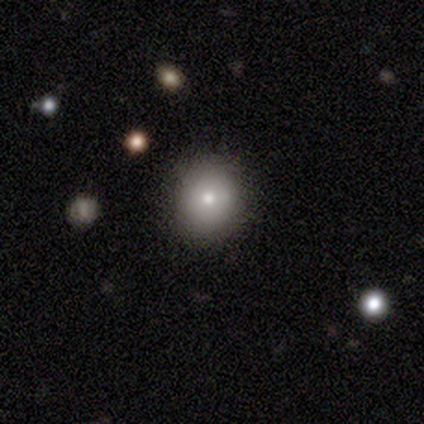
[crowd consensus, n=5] This is clearly a smooth galaxy (100%). How rounded: clearly round (80%). Merging: clearly none (80%).